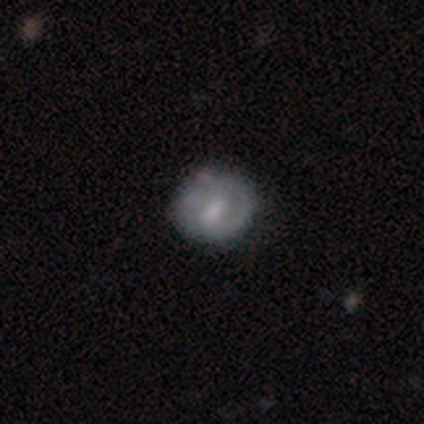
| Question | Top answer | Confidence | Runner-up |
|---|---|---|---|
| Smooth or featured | smooth | 60% | featured or disk (20%) |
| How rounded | round | 100% | — |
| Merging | none | 100% | — |